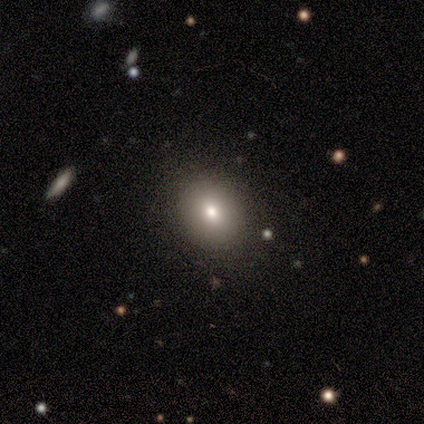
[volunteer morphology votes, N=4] type=smooth (75%); roundness=in between (67%); merging=none (100%).